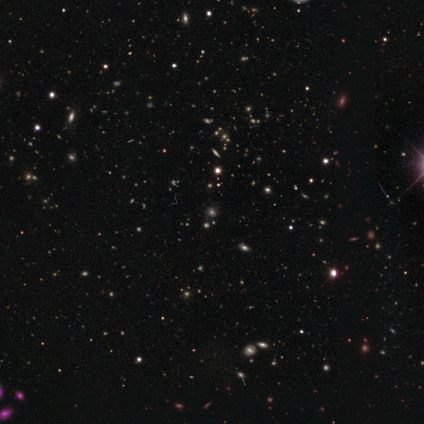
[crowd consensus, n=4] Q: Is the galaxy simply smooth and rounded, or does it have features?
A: smooth — 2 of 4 (50%, tied with star or artifact).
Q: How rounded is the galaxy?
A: round — 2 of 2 (100%).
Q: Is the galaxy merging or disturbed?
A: none — 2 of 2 (100%).